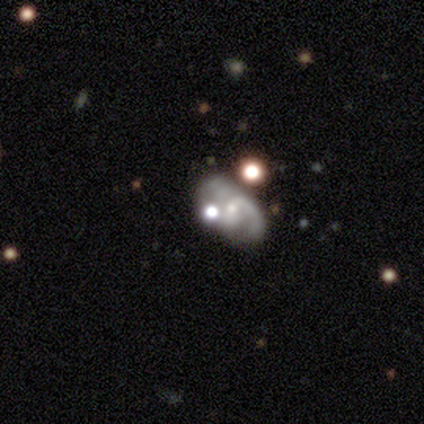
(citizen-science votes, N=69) Smooth or featured: featured or disk — 72% (star or artifact — 16%)
Edge-on disk: no — 100%
Bar: no — 66% (weak — 28%)
Spiral arms: yes — 92% (no — 8%)
Spiral winding: medium — 59% (tight — 26%)
Spiral arm count: 2 — 54% (1 — 24%)
Bulge size: small — 68% (moderate — 28%)
Merging: none — 53% (minor disturbance — 22%)